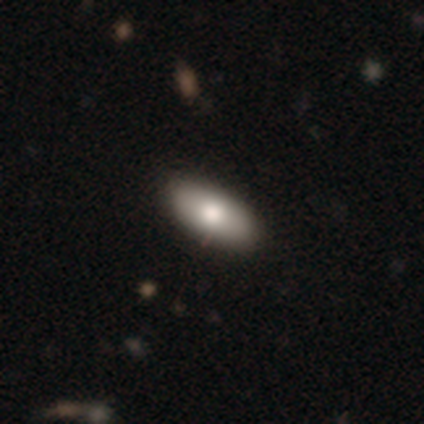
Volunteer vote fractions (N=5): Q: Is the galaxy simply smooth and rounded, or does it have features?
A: smooth — 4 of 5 (80%).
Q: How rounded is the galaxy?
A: in between — 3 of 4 (75%).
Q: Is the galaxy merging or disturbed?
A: none — 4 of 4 (100%).